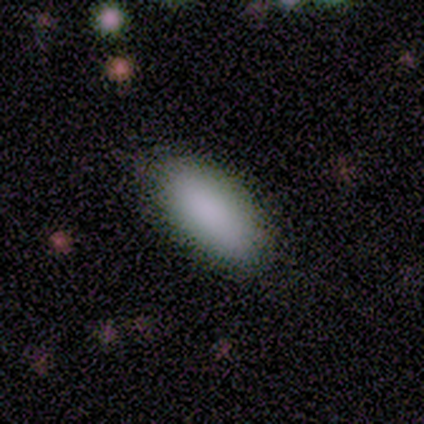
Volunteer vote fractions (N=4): Smooth or featured: smooth — 75% (featured or disk — 25%)
How rounded: in between — 100%
Merging: none — 75% (minor disturbance — 25%)